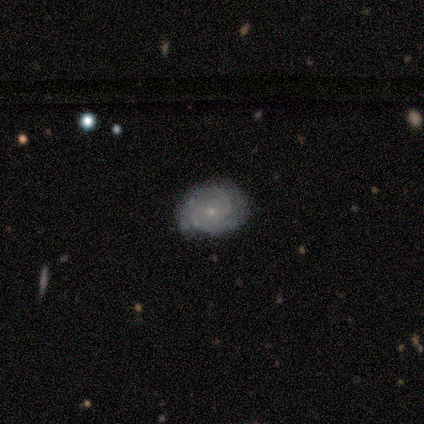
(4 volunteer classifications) A featured or disk galaxy (75%) with no bar (67%), 2 (67%) medium (67%) spiral arms (100%) and a small central bulge (67%). Merging: none (100%).